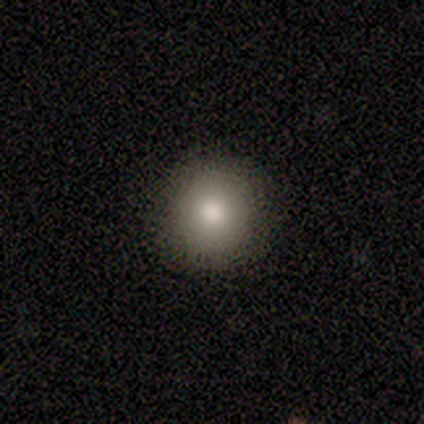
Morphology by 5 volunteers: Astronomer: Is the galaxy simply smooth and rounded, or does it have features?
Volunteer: smooth — 100%.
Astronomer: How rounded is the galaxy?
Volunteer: round — 80%.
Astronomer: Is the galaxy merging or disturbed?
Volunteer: none — 100%.